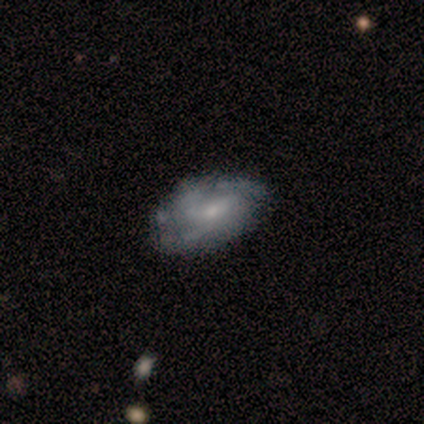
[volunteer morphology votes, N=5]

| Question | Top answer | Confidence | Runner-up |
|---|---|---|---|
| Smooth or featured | featured or disk | 60% | smooth (40%) |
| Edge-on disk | no | 100% | — |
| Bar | no | 67% | weak (33%) |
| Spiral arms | yes | 67% | no (33%) |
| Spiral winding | medium | 100% | — |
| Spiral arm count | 3 | 50% | tied: can't tell (50%) |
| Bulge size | small | 100% | — |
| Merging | none | 80% | minor disturbance (20%) |